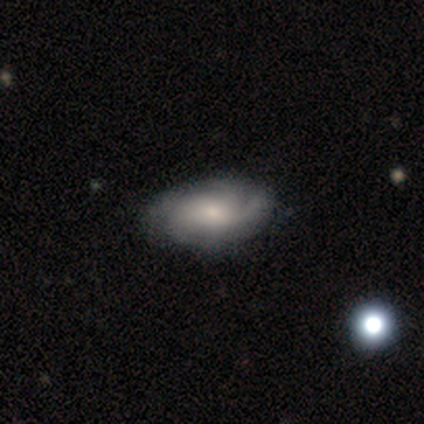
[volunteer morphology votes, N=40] Volunteers were most divided on "spiral arm count" (2-way tie): 3: 30%, can't tell: 30%, 4: 26%, 2: 11%, 1: 4%, more than 4: 0%. More confident: edge-on disk — no (100%); spiral arms — yes (96%); merging — none (71%); smooth or featured — featured or disk (70%); bar — no (68%); bulge size — small (54%); spiral winding — tight (52%).